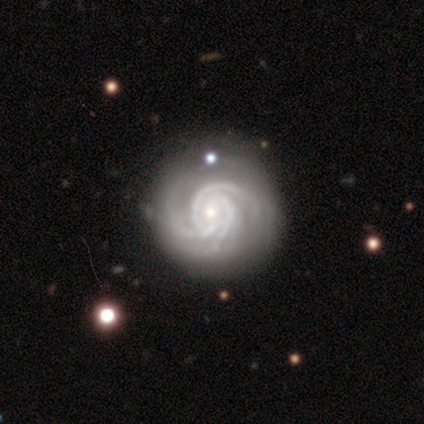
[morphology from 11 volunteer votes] A featured or disk galaxy (100%) with no bar (45%), 3 (45%) tight (82%) spiral arms (100%) and a small central bulge (64%). Merging: none (91%).